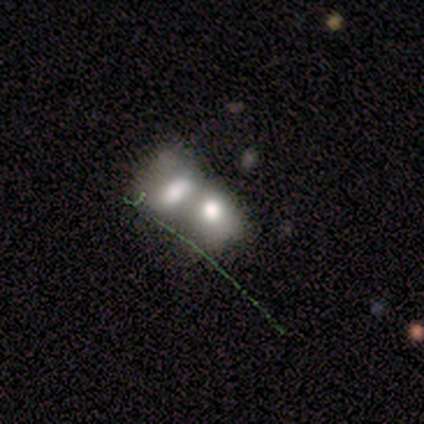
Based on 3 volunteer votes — Q: Smooth or featured?
A: smooth (33%); tied with: featured or disk (33%); star or artifact (33%)
Q: How rounded?
A: in between (100%)
Q: Merging?
A: merger (100%)